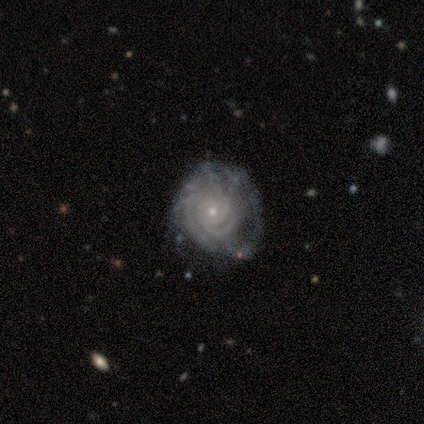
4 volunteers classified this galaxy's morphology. A featured or disk galaxy (100%) with no bar (75%), 2 (50%) tight (75%) spiral arms (100%) and a small central bulge (75%).

Vote fractions:
- Smooth or featured? featured or disk: 100% / smooth: 0% / star or artifact: 0%
- Edge-on disk? no: 100% / yes: 0%
- Bar? no: 75% / weak: 25% / strong: 0%
- Spiral arms? yes: 100% / no: 0%
- Spiral winding? tight: 75% / medium: 25% / loose: 0%
- Spiral arm count? 2: 50% / 4: 25% / can't tell: 25% / 1: 0% / 3: 0% / more than 4: 0%
- Bulge size? small: 75% / moderate: 25% / dominant: 0% / large: 0% / none: 0%
- Merging? minor disturbance: 50% / none: 25% / major disturbance: 25% / merger: 0%